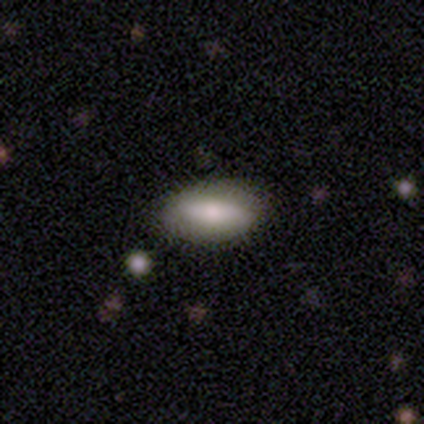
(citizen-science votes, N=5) smooth-or-featured: smooth: 40% (tied) | featured or disk: 40% (tied) | star or artifact: 20%
  how-rounded: in between: 100% | round: 0% | cigar-shaped: 0%
  merging: none: 50% (tied) | minor disturbance: 50% (tied) | major disturbance: 0% | merger: 0%